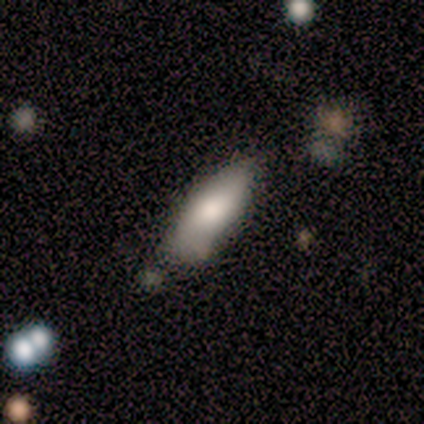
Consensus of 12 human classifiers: This is clearly a smooth galaxy (92%). How rounded: likely in between (73%). Merging: possibly none (55%).